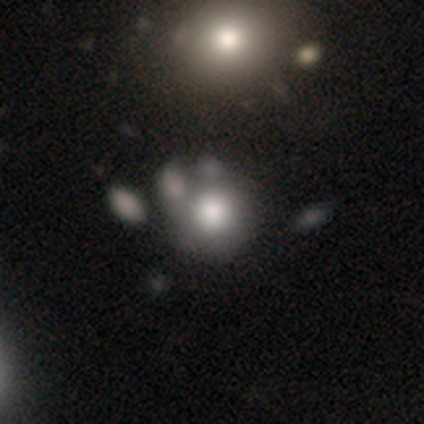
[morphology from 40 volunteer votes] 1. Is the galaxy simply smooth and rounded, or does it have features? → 75% smooth, 22% featured or disk, 2% star or artifact.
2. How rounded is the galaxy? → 93% round, 7% in between, 0% cigar-shaped.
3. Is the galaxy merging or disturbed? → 38% none, 31% merger, 8% major disturbance, 3% minor disturbance.